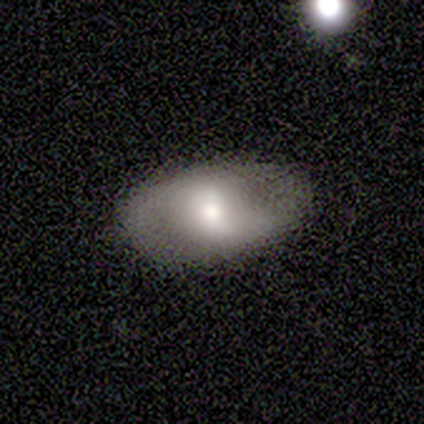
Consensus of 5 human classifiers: This is likely a smooth galaxy (60%). How rounded: clearly in between (100%). Merging: likely none (60%).